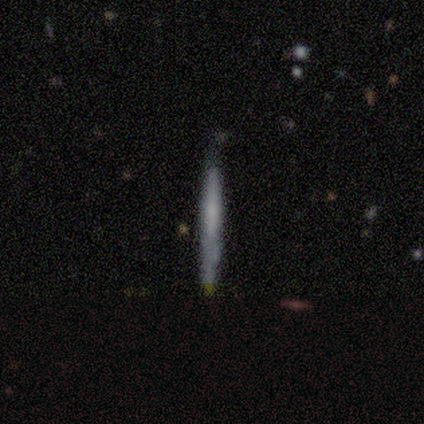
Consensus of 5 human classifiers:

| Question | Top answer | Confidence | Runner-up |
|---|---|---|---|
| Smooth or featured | smooth | 60% | featured or disk (40%) |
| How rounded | cigar-shaped | 100% | — |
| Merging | none | 60% | minor disturbance (40%) |